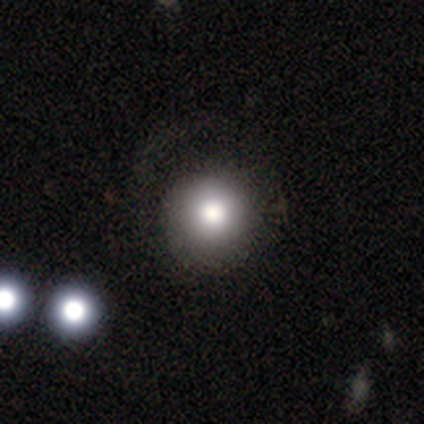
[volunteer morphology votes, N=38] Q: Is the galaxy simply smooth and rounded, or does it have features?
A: smooth — 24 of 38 (63%).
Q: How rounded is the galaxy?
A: round — 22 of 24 (92%).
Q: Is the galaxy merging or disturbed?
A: none — 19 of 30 (63%).